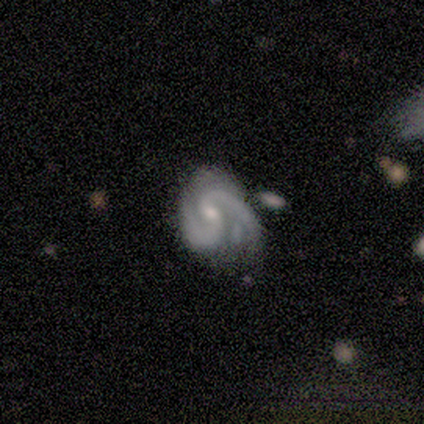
Smooth or featured? featured or disk (100%)
Edge-on disk? no (100%)
Bar? weak (80%)
Spiral arms? yes (100%)
Spiral winding? medium (100%)
Spiral arm count? 2 (80%)
Bulge size? moderate (60%)
Merging? none (40%, tied with major disturbance)